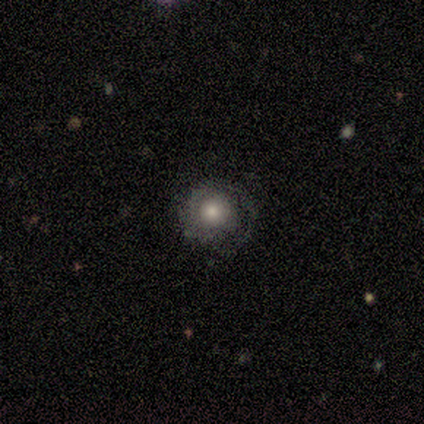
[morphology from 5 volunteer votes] smooth-or-featured: featured or disk: 80% | smooth: 20% | star or artifact: 0%
  disk-edge-on: no: 100% | yes: 0%
    bar: no: 100% | strong: 0% | weak: 0%
    has-spiral-arms: yes: 75% | no: 25%
      spiral-winding: tight: 67% | medium: 33% | loose: 0%
      spiral-arm-count: 1: 67% | 2: 33% | 3: 0% | 4: 0% | more than 4: 0% | can't tell: 0%
    bulge-size: moderate: 75% | large: 25% | dominant: 0% | small: 0% | none: 0%
  merging: none: 80% | minor disturbance: 20% | major disturbance: 0% | merger: 0%